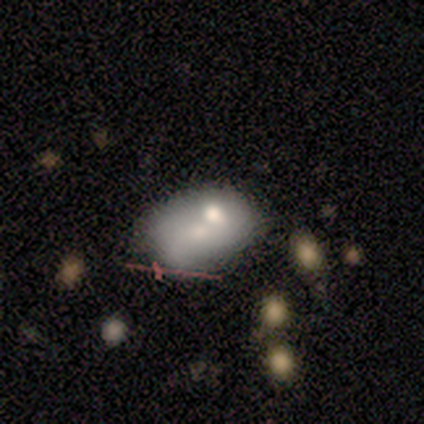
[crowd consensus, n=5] Q: Smooth or featured?
A: featured or disk (80%); runner-up: smooth (20%)
Q: Edge-on disk?
A: no (100%)
Q: Bar?
A: no (100%)
Q: Spiral arms?
A: no (100%)
Q: Bulge size?
A: moderate (50%); tied with: small (50%)
Q: Merging?
A: minor disturbance (40%); runner-up: none (20%)